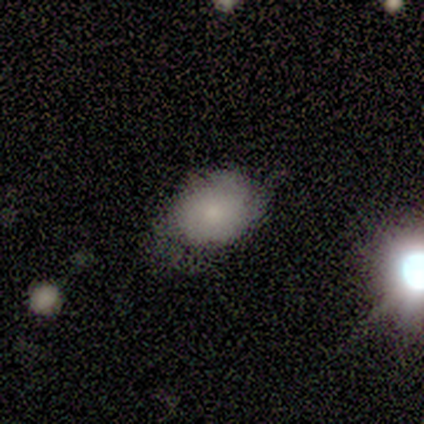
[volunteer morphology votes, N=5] Smooth or featured? smooth (80%)
How rounded? in between (75%)
Merging? none (60%)